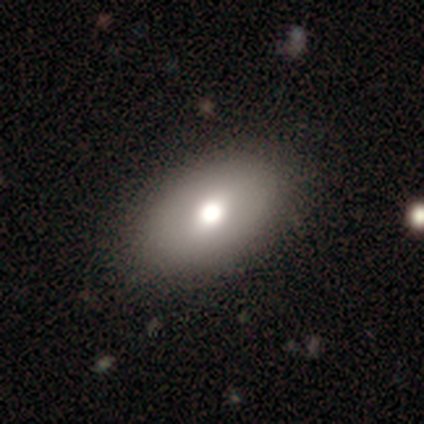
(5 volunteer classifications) Smooth or featured?
  - smooth: 80% *
  - featured or disk: 20%
  - star or artifact: 0%
How rounded?
  - in between: 75% *
  - round: 25%
  - cigar-shaped: 0%
Merging?
  - none: 100% *
  - minor disturbance: 0%
  - major disturbance: 0%
  - merger: 0%